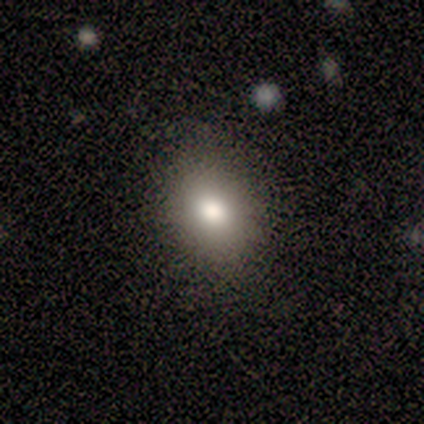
A smooth galaxy with no disk features (100%) that is in between round and cigar-shaped (67%).

Vote fractions:
- Smooth or featured? smooth: 100% / featured or disk: 0% / star or artifact: 0%
- How rounded? in between: 67% / round: 33% / cigar-shaped: 0%
- Merging? none: 83% / major disturbance: 17% / minor disturbance: 0% / merger: 0%